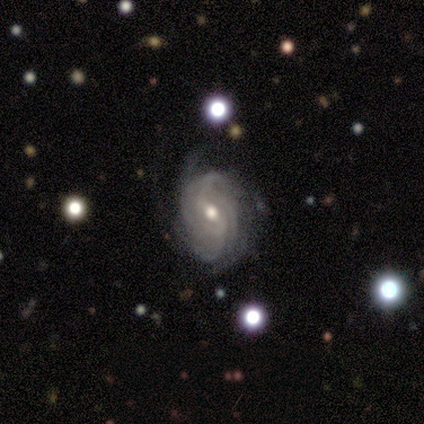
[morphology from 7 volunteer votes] type=featured or disk (100%); edge-on=no (100%); bar=weak (71%); spiral arms=yes (100%); winding=tight (43%, tied with medium); arm count=can't tell (57%); bulge=moderate (71%); merging=none (43%, tied with minor disturbance).